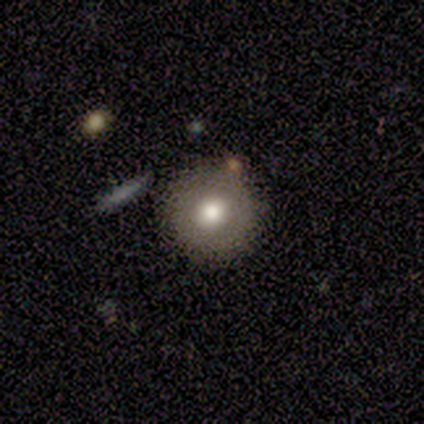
Q: Smooth or featured?
A: smooth (75%); runner-up: featured or disk (25%)
Q: How rounded?
A: round (67%); runner-up: in between (33%)
Q: Merging?
A: none (75%); runner-up: major disturbance (25%)